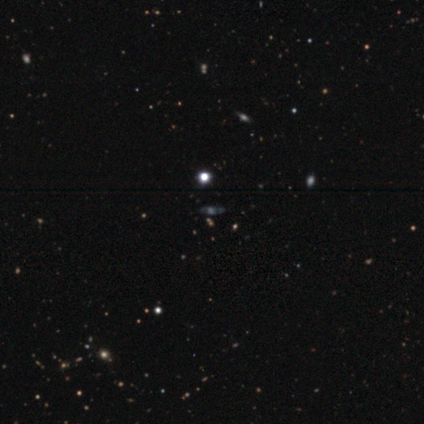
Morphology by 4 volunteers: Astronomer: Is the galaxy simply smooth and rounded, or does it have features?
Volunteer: star or artifact — 100%.